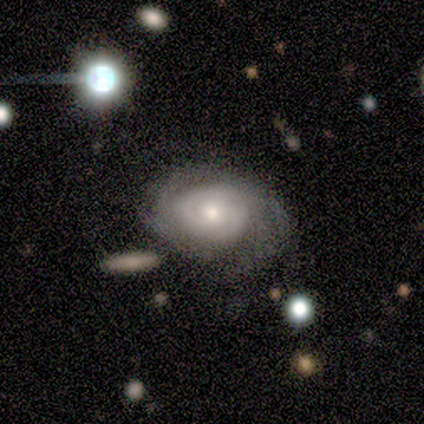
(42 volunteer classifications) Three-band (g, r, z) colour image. It shows a featured or disk galaxy (79%) with no bar (79%), 2 (53%) tight (87%) spiral arms (91%) and a moderate central bulge (61%). Merging: none (46%).